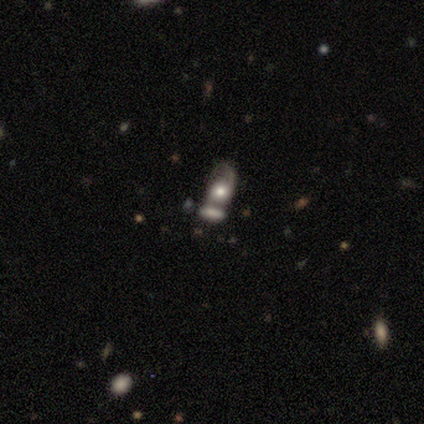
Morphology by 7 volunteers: Smooth or featured: smooth — 57% (featured or disk — 43%)
How rounded: in between — 75% (round — 25%)
Merging: merger — 86% (minor disturbance — 14%)